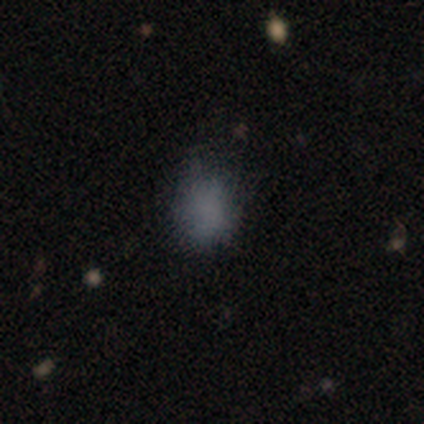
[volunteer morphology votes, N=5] Smooth or featured: smooth — 100%
How rounded: round — 80% (in between — 20%)
Merging: none — 40% (tied with minor disturbance — 40%)